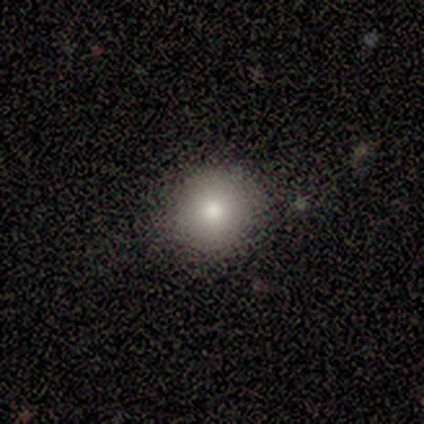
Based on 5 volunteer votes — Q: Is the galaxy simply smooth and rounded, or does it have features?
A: smooth — 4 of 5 (80%).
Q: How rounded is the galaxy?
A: round — 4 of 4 (100%).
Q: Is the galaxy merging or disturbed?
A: none — 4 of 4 (100%).